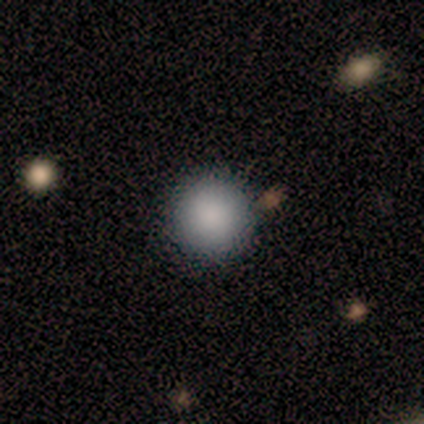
A smooth galaxy with no disk features (100%) that is round (100%). Merging: none (50%, tied with minor disturbance).